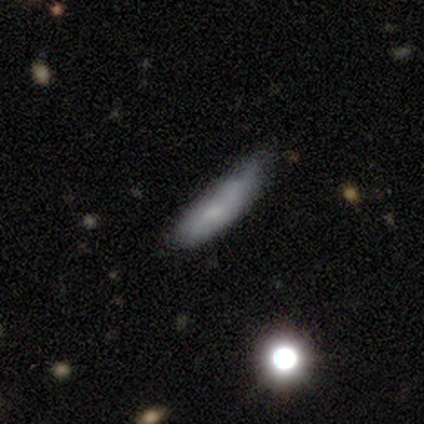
Smooth or featured: smooth — 100%
How rounded: cigar-shaped — 60% (in between — 40%)
Merging: none — 60% (minor disturbance — 40%)